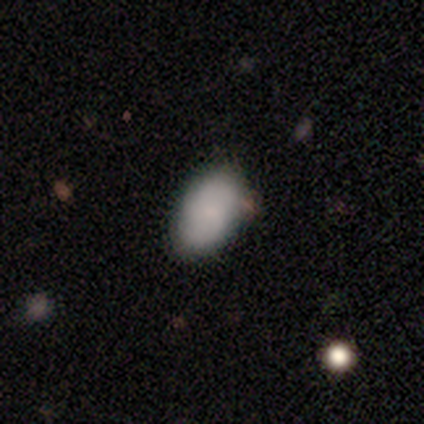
This is clearly a smooth galaxy (90%). How rounded: clearly in between (94%). Merging: likely none (75%).